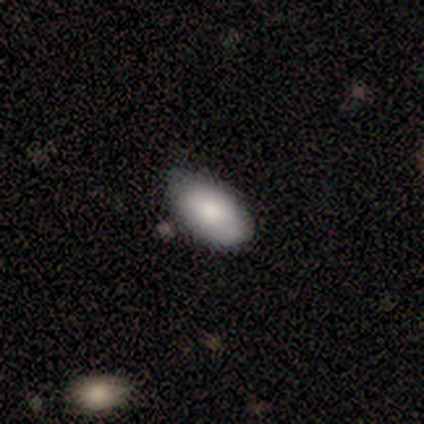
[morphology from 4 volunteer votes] smooth-or-featured: smooth: 100% | featured or disk: 0% | star or artifact: 0%
  how-rounded: in between: 100% | round: 0% | cigar-shaped: 0%
  merging: none: 100% | minor disturbance: 0% | major disturbance: 0% | merger: 0%